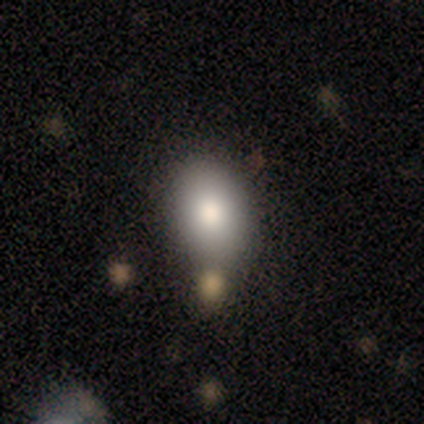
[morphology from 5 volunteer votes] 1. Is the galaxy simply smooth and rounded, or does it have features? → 80% smooth, 20% featured or disk, 0% star or artifact.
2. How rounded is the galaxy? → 75% in between, 25% round, 0% cigar-shaped.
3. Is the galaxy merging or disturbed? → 80% none, 20% merger, 0% minor disturbance, 0% major disturbance.